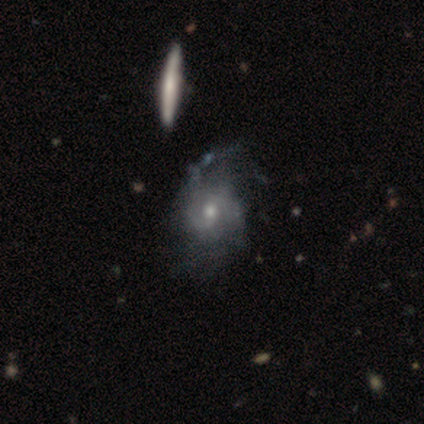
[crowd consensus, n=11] Smooth or featured: featured or disk — 73% (smooth — 18%)
Edge-on disk: no — 100%
Bar: no — 50% (weak — 38%)
Spiral arms: yes — 88% (no — 12%)
Spiral winding: tight — 57% (loose — 29%)
Spiral arm count: 2 — 43% (tied with can't tell — 43%)
Bulge size: moderate — 62% (small — 38%)
Merging: major disturbance — 40% (none — 30%)